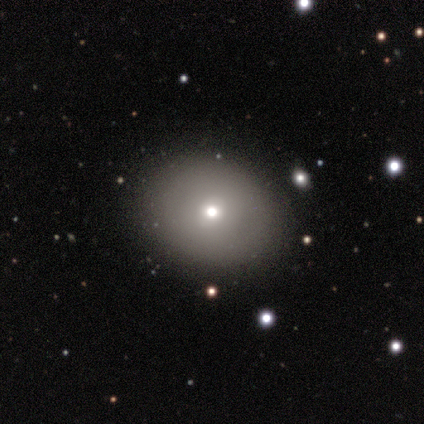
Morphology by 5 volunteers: Smooth or featured: smooth — 100%
How rounded: round — 60% (in between — 40%)
Merging: none — 100%